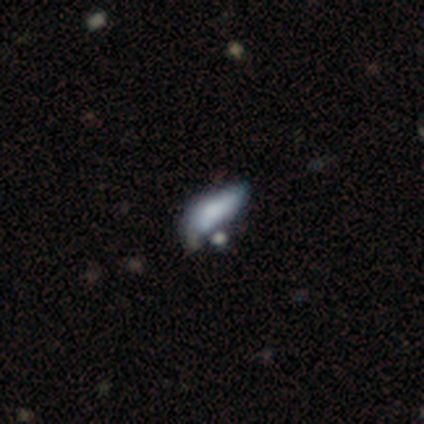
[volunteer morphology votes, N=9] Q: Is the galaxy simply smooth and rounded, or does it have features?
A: smooth — 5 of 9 (56%).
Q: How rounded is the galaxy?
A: in between — 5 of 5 (100%).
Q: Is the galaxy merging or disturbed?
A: major disturbance — 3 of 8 (38%).